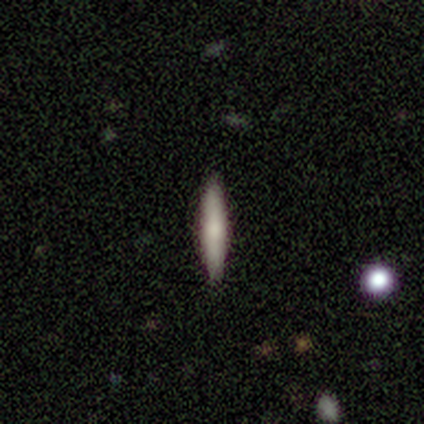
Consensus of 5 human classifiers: A smooth galaxy with no disk features (80%) that is cigar-shaped (100%). Merging: none (100%).